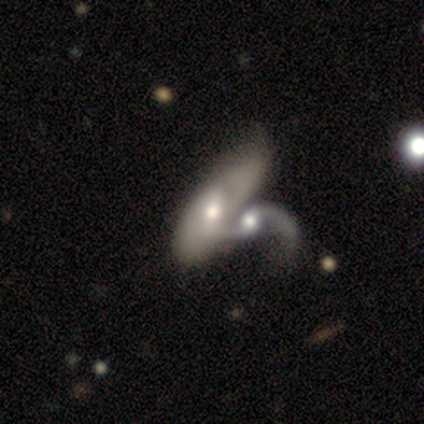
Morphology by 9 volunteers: Smooth or featured? 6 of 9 (67%) said featured or disk. Edge-on disk? 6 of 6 (100%) said no. Bar? 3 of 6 (50%) said no. Spiral arms? 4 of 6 (67%) said yes. Spiral winding? 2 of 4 (50%, tied with loose) said medium. Spiral arm count? 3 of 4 (75%) said 2. Bulge size? 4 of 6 (67%) said moderate. Merging? 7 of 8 (88%) said merger.